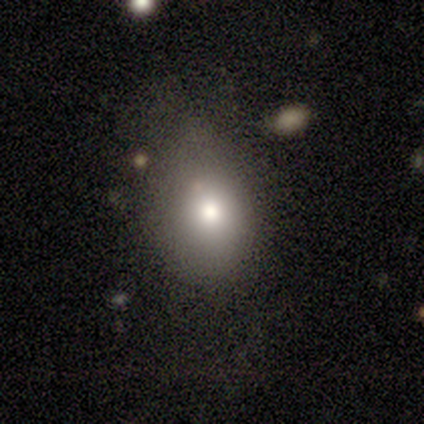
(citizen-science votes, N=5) smooth_or_featured: smooth (p=0.80) [alt: featured or disk p=0.20]
how_rounded: in between (p=0.75) [alt: round p=0.25]
merging: major disturbance (p=0.60) [alt: none p=0.20]